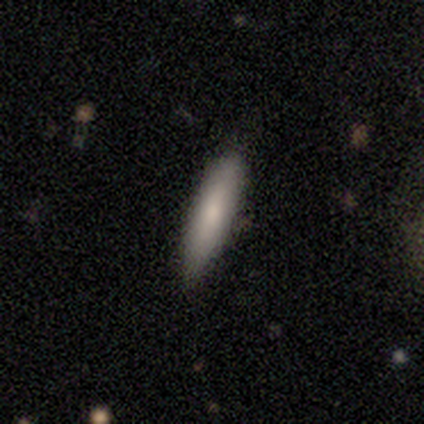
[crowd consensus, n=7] Q: Smooth or featured?
A: smooth (71%); runner-up: featured or disk (29%)
Q: How rounded?
A: cigar-shaped (100%)
Q: Merging?
A: none (57%); runner-up: minor disturbance (43%)